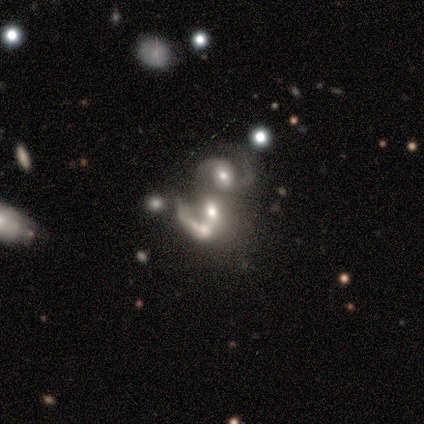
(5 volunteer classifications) This is clearly a featured or disk galaxy (80%). It is clearly not viewed edge-on (100%). Bar: possibly weak (50%, tied with no). Spiral arm pattern: likely yes (75%). Spiral arm count: likely 2 (67%). Spiral winding: likely medium (67%). Central bulge: likely moderate (75%). Merging: clearly merger (100%).